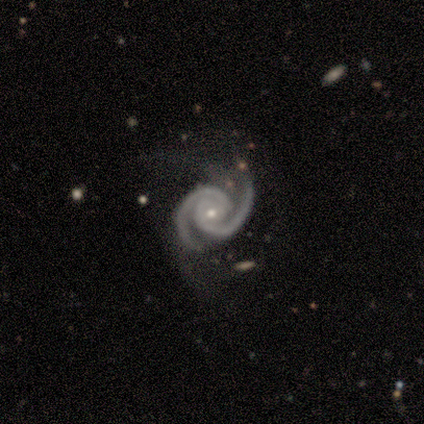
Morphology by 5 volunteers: Volunteers were most divided on "bar": no: 80%, weak: 20%, strong: 0%. More confident: smooth or featured — featured or disk (100%); edge-on disk — no (100%); spiral arms — yes (100%); spiral arm count — 2 (100%); bulge size — small (100%); merging — none (100%); spiral winding — tight (80%).